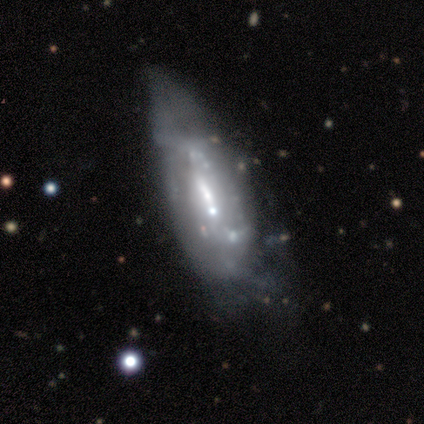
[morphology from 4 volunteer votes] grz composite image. It shows a smooth galaxy with no disk features (50%, tied with featured or disk) that is in between round and cigar-shaped (100%). Merging: minor disturbance (75%).